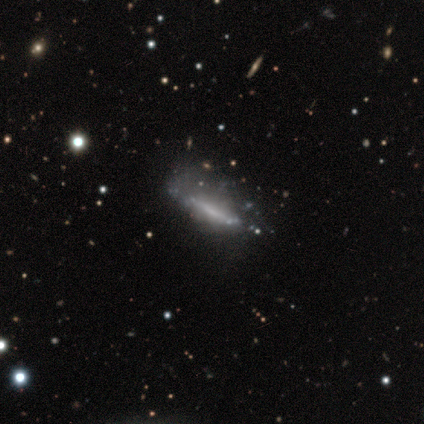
Smooth or featured? 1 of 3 (33%, tied with featured or disk and star or artifact) said smooth. How rounded? 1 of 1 (100%) said cigar-shaped. Merging? 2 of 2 (100%) said none.